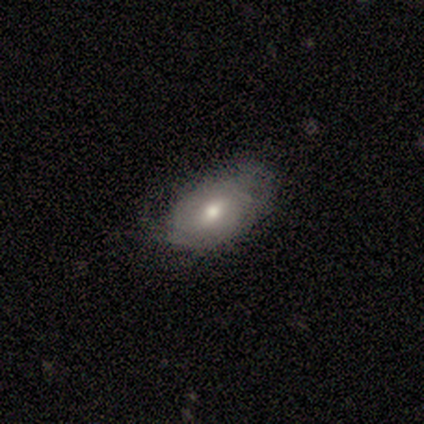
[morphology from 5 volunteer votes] smooth-or-featured: smooth: 100% | featured or disk: 0% | star or artifact: 0%
  how-rounded: in between: 100% | round: 0% | cigar-shaped: 0%
  merging: minor disturbance: 60% | none: 40% | major disturbance: 0% | merger: 0%